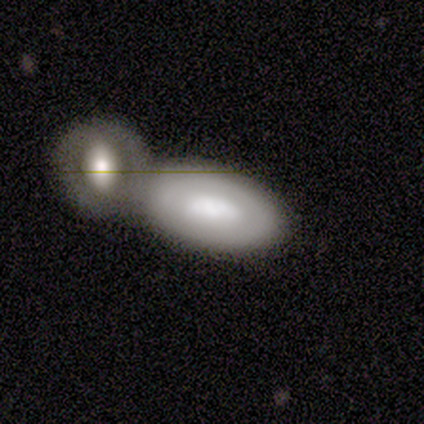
A smooth galaxy with no disk features (49%) that is in between round and cigar-shaped (91%). Merging: merger (66%).